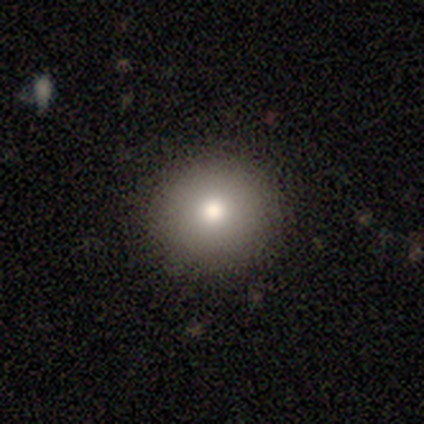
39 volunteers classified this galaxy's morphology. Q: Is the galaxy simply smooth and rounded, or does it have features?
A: smooth — 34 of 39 (87%).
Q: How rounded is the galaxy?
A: round — 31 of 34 (91%).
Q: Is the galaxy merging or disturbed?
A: none — 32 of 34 (94%).